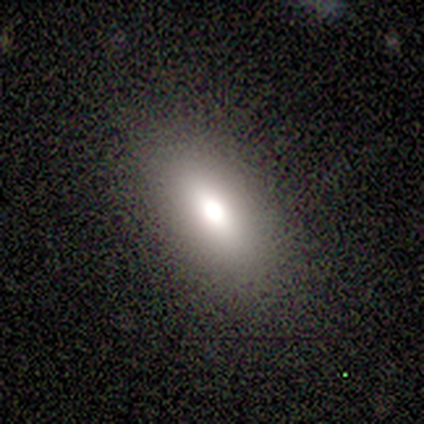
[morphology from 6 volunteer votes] Smooth or featured? smooth (100%)
How rounded? in between (67%)
Merging? none (83%)